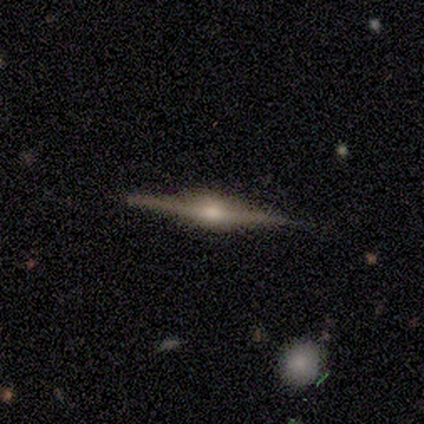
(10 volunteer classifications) smooth-or-featured: featured or disk: 90% | smooth: 10% | star or artifact: 0%
  disk-edge-on: yes: 100% | no: 0%
    edge-on-bulge: rounded: 56% | boxy: 33% | none: 11%
  merging: none: 80% | minor disturbance: 20% | major disturbance: 0% | merger: 0%